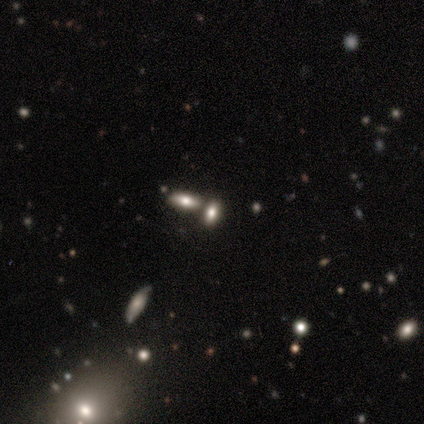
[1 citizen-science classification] Morphology: type=smooth (100%); roundness=cigar-shaped (100%); merging=merger (100%).